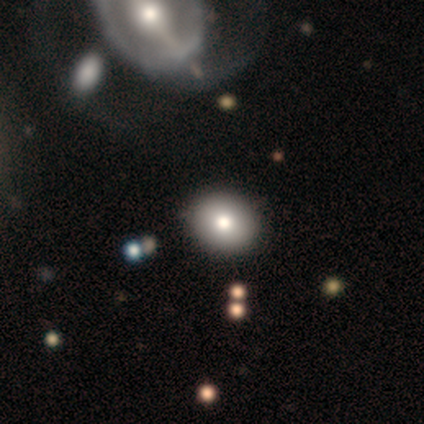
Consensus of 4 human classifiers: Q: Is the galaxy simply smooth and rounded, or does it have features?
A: smooth — 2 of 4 (50%, tied with featured or disk).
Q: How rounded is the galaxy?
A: round — 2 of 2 (100%).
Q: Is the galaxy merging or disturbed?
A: none — 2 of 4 (50%, tied with minor disturbance).